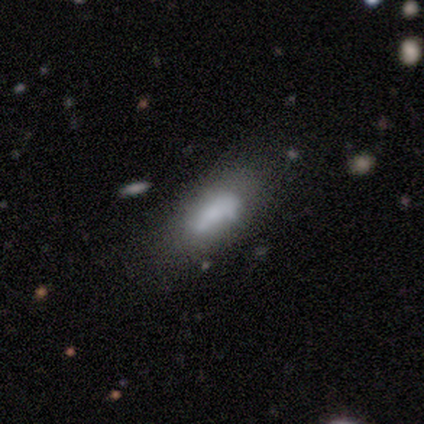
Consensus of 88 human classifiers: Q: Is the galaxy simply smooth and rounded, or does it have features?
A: smooth — 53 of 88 (60%).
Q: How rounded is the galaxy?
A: in between — 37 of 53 (70%).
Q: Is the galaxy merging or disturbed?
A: none — 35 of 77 (45%).